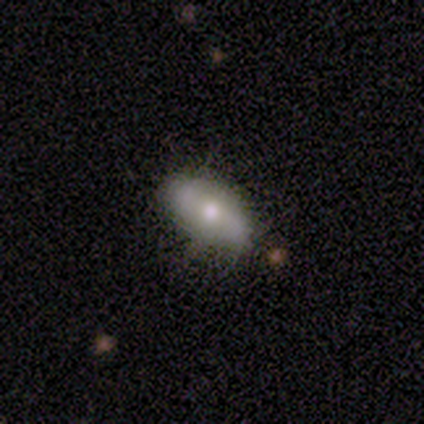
Smooth or featured? smooth (83%)
How rounded? in between (60%)
Merging? none (67%)